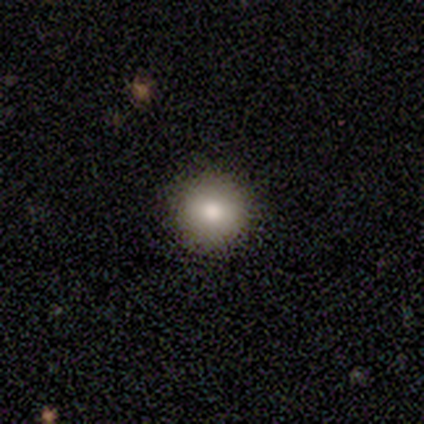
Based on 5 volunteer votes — Smooth or featured? smooth (100%)
How rounded? round (100%)
Merging? none (100%)